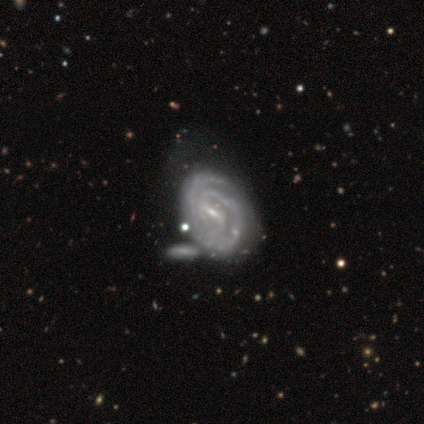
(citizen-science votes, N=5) A featured or disk galaxy (80%) with a strong bar (50%, tied with weak), 2 (100%) tight (100%) spiral arms (100%) and a small central bulge (100%).

Vote fractions:
- Smooth or featured? featured or disk: 80% / smooth: 20% / star or artifact: 0%
- Edge-on disk? no: 100% / yes: 0%
- Bar? strong: 50% (tied) / weak: 50% (tied) / no: 0%
- Spiral arms? yes: 100% / no: 0%
- Spiral winding? tight: 100% / medium: 0% / loose: 0%
- Spiral arm count? 2: 100% / 1: 0% / 3: 0% / 4: 0% / more than 4: 0% / can't tell: 0%
- Bulge size? small: 100% / dominant: 0% / large: 0% / moderate: 0% / none: 0%
- Merging? none: 40% / minor disturbance: 20% / major disturbance: 20% / merger: 20%